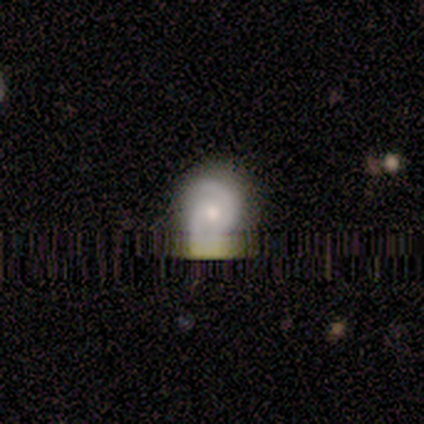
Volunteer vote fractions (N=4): smooth-or-featured: smooth: 50% | featured or disk: 25% | star or artifact: 25%
  how-rounded: round: 100% | in between: 0% | cigar-shaped: 0%
  merging: minor disturbance: 67% | none: 33% | major disturbance: 0% | merger: 0%